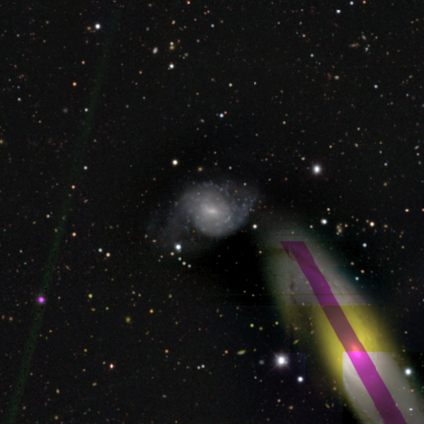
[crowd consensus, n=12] Smooth or featured?
  - featured or disk: 83% *
  - smooth: 8%
  - star or artifact: 8%
Edge-on disk?
  - no: 100% *
  - yes: 0%
Bar?
  - weak: 70% *
  - no: 20%
  - strong: 10%
Spiral arms?
  - yes: 100% *
  - no: 0%
Spiral winding?
  - medium: 60% *
  - tight: 20%
  - loose: 20%
Spiral arm count?
  - can't tell: 40% *
  - 2: 30%
  - 3: 20%
  - more than 4: 10%
  - 1: 0%
  - 4: 0%
Bulge size?
  - moderate: 50% * (tied)
  - small: 50% * (tied)
  - dominant: 0%
  - large: 0%
  - none: 0%
Merging?
  - none: 55% *
  - minor disturbance: 36%
  - merger: 9%
  - major disturbance: 0%